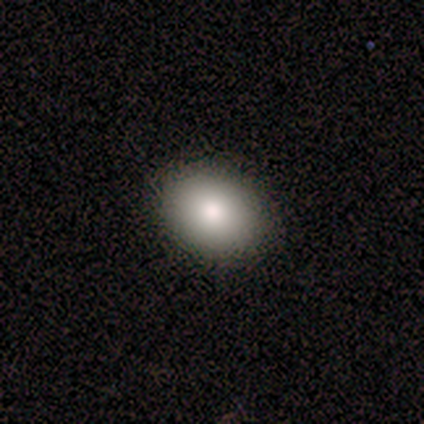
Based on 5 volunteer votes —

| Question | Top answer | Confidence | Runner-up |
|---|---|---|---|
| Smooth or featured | smooth | 60% | star or artifact (40%) |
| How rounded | in between | 67% | round (33%) |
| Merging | none | 100% | — |